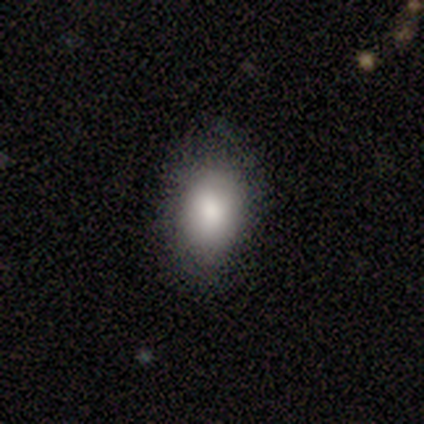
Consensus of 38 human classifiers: A smooth galaxy with no disk features (87%) that is in between round and cigar-shaped (79%). Merging: none (85%).